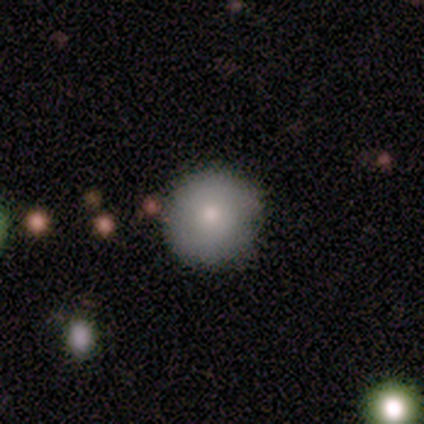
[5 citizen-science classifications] Smooth or featured?
  - smooth: 60% *
  - featured or disk: 40%
  - star or artifact: 0%
How rounded?
  - round: 100% *
  - in between: 0%
  - cigar-shaped: 0%
Merging?
  - none: 100% *
  - minor disturbance: 0%
  - major disturbance: 0%
  - merger: 0%